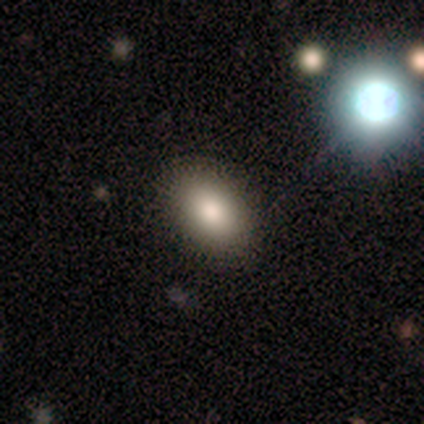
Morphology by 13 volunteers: Smooth or featured?
  - smooth: 85% *
  - featured or disk: 8%
  - star or artifact: 8%
How rounded?
  - in between: 82% *
  - round: 18%
  - cigar-shaped: 0%
Merging?
  - none: 67% *
  - minor disturbance: 17%
  - major disturbance: 17%
  - merger: 0%